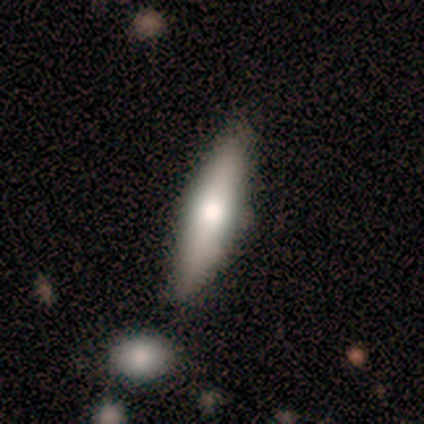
Volunteers were most divided on "smooth or featured": smooth: 80%, featured or disk: 20%, star or artifact: 0%. More confident: how rounded — cigar-shaped (100%); merging — none (100%).